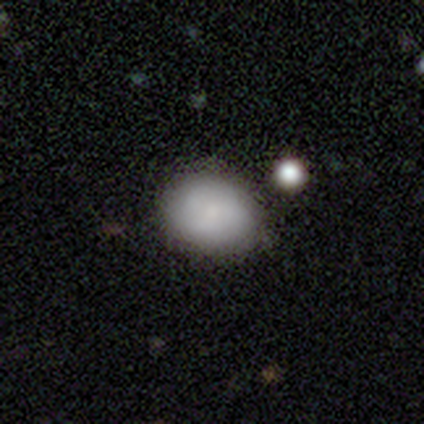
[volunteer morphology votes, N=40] Smooth or featured?
  - smooth: 75% *
  - featured or disk: 25%
  - star or artifact: 0%
How rounded?
  - in between: 63% *
  - round: 37%
  - cigar-shaped: 0%
Merging?
  - none: 72% *
  - minor disturbance: 20%
  - merger: 5%
  - major disturbance: 2%